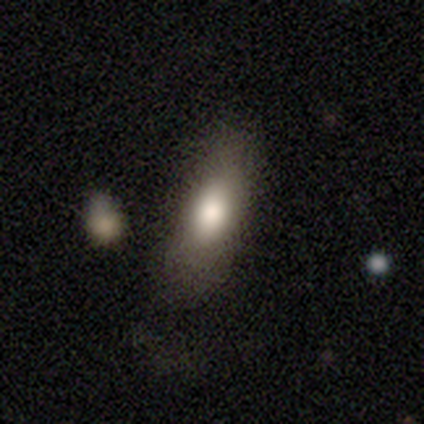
Overall: smooth (68%). How rounded: in between (88%). Merging: none (40%; minor disturbance 14%).